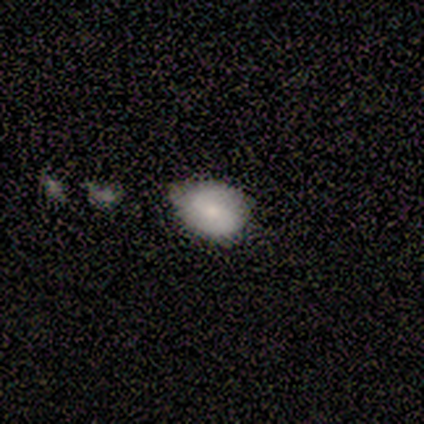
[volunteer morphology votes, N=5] smooth-or-featured: smooth: 60% | featured or disk: 40% | star or artifact: 0%
  how-rounded: in between: 100% | round: 0% | cigar-shaped: 0%
  merging: minor disturbance: 60% | none: 20% | major disturbance: 20% | merger: 0%